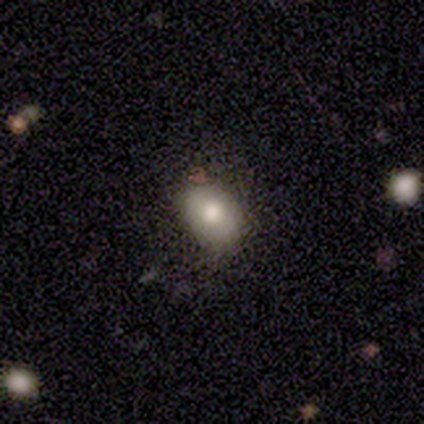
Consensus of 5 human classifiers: smooth-or-featured: smooth: 80% | featured or disk: 20% | star or artifact: 0%
  how-rounded: in between: 100% | round: 0% | cigar-shaped: 0%
  merging: none: 100% | minor disturbance: 0% | major disturbance: 0% | merger: 0%